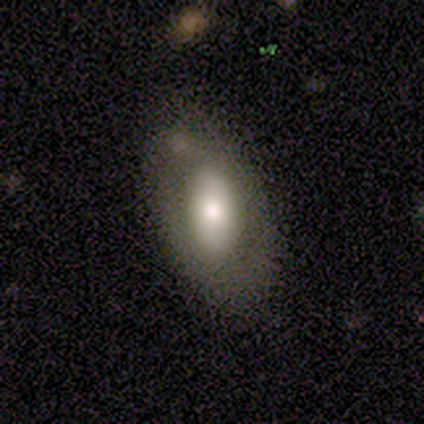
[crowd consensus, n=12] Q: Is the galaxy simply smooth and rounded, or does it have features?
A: featured or disk — 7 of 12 (58%).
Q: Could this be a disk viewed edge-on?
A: no — 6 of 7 (86%).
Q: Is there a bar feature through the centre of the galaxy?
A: no — 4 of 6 (67%).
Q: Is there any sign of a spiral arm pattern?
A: no — 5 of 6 (83%).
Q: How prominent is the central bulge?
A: large — 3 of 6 (50%).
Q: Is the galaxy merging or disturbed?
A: none — 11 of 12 (92%).